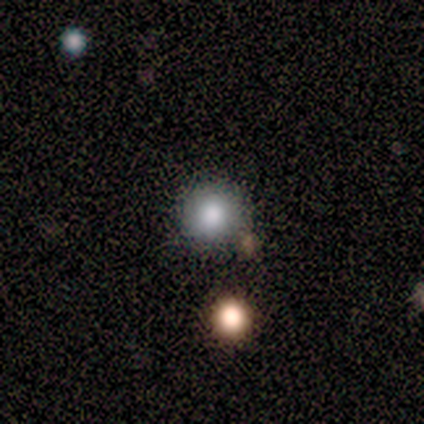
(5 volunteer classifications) Smooth or featured: smooth — 100%
How rounded: round — 100%
Merging: none — 100%